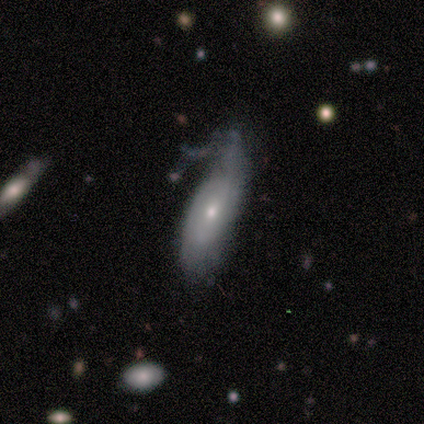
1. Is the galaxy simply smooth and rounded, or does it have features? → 67% featured or disk, 33% smooth, 0% star or artifact.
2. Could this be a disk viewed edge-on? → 100% no, 0% yes.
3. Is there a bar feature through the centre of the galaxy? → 75% no, 25% weak, 0% strong.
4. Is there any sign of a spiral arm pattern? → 75% yes, 25% no.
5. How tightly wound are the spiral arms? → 67% loose, 33% medium, 0% tight.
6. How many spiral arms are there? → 100% 2, 0% 1, 0% 3, 0% 4, 0% more than 4, 0% can't tell.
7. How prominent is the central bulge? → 50% moderate (tied), 50% small (tied), 0% dominant, 0% large, 0% none.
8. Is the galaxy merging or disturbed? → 50% major disturbance, 33% minor disturbance, 17% none, 0% merger.